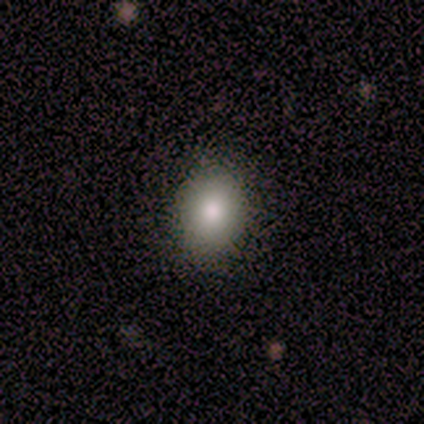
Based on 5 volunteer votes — smooth-or-featured: smooth: 80% | star or artifact: 20% | featured or disk: 0%
  how-rounded: round: 75% | in between: 25% | cigar-shaped: 0%
  merging: none: 100% | minor disturbance: 0% | major disturbance: 0% | merger: 0%